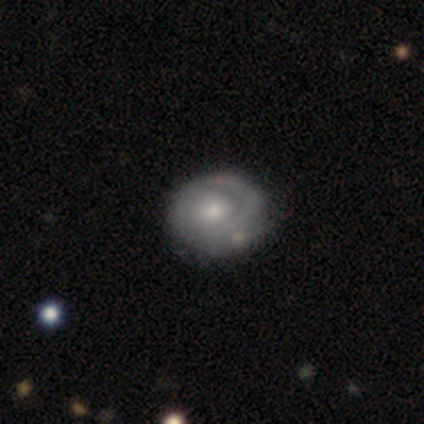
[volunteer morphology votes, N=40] Volunteers were most divided on "spiral arm count": 1: 50%, can't tell: 28%, 2: 22%, 3: 0%, 4: 0%, more than 4: 0%. Remaining: edge-on disk — no (96%); bar — no (96%); spiral winding — tight (72%); spiral arms — yes (69%); smooth or featured — featured or disk (68%); bulge size — moderate (65%); merging — none (42%).